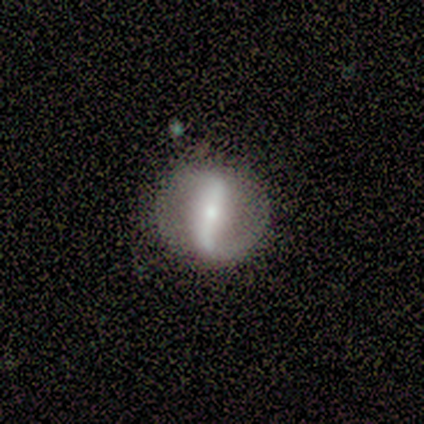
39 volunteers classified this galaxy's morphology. A featured or disk galaxy (92%) with a strong bar (76%), 2 (80%) loose (56%) spiral arms (76%) and a small central bulge (73%).

Vote fractions:
- Smooth or featured? featured or disk: 92% / star or artifact: 5% / smooth: 3%
- Edge-on disk? no: 92% / yes: 8%
- Bar? strong: 76% / no: 15% / weak: 9%
- Spiral arms? yes: 76% / no: 24%
- Spiral winding? loose: 56% / tight: 24% / medium: 20%
- Spiral arm count? 2: 80% / can't tell: 12% / 1: 8% / 3: 0% / 4: 0% / more than 4: 0%
- Bulge size? small: 73% / moderate: 24% / large: 3% / dominant: 0% / none: 0%
- Merging? none: 84% / minor disturbance: 11% / major disturbance: 5% / merger: 0%